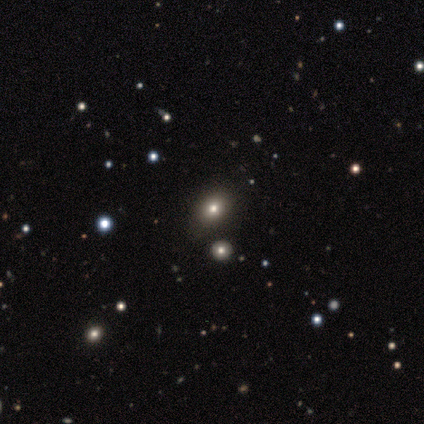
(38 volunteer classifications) This appears to be a smooth galaxy with no disk features (55%) that is in between round and cigar-shaped (71%). Merging: none (88%).